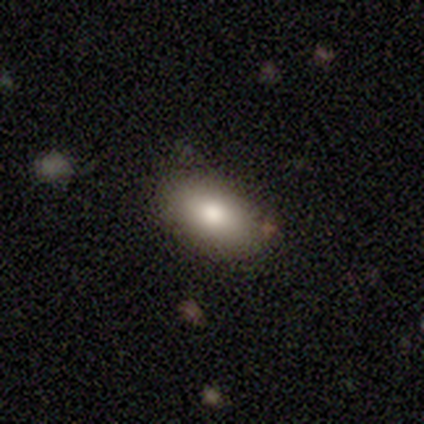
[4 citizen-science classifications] Overall: smooth (75%). How rounded: in between (100%). Merging: none (100%).